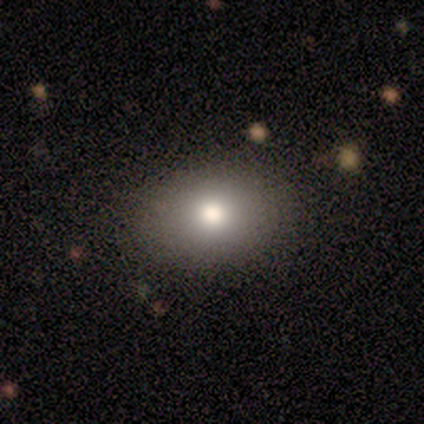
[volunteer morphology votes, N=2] Smooth or featured: smooth — 100%
How rounded: in between — 100%
Merging: none — 100%